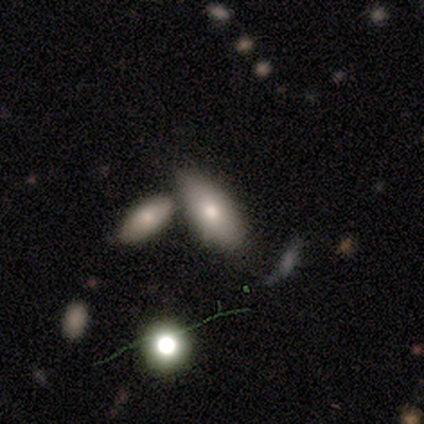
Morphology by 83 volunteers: smooth 75%, featured or disk 19%, star or artifact 6%. Down the decision tree: how rounded — in between (74%); merging — merger (37%).